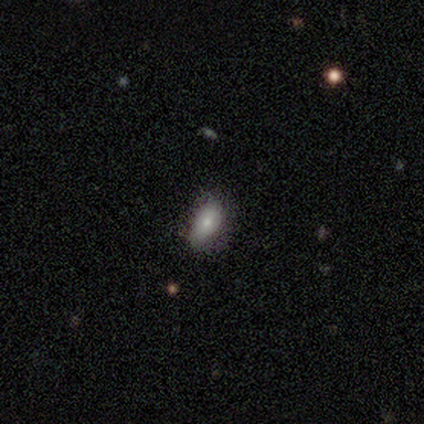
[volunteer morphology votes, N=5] This is clearly a smooth galaxy (80%). How rounded: clearly in between (100%). Merging: clearly none (100%).